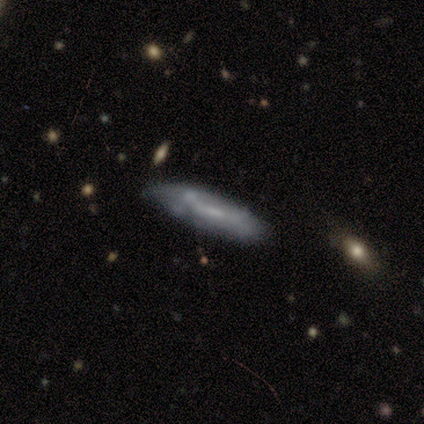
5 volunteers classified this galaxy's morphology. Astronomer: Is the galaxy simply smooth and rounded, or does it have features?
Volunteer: featured or disk — 80%.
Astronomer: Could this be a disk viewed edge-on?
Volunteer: no — 75%.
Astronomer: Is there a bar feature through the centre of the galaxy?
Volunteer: no — 100%.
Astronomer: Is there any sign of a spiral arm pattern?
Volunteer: no — 100%.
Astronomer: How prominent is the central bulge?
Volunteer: none — 67%.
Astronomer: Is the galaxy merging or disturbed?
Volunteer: none — 60%.